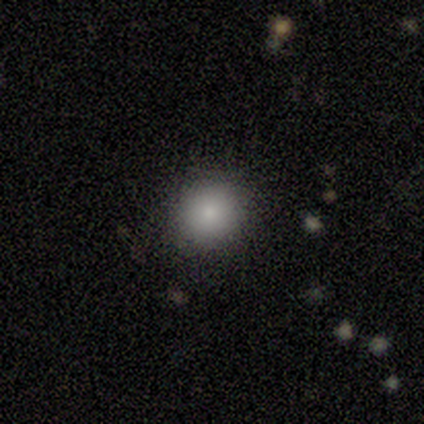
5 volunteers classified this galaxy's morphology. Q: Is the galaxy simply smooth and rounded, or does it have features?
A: smooth — 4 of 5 (80%).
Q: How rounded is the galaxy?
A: round — 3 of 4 (75%).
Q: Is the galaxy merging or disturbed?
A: none — 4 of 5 (80%).